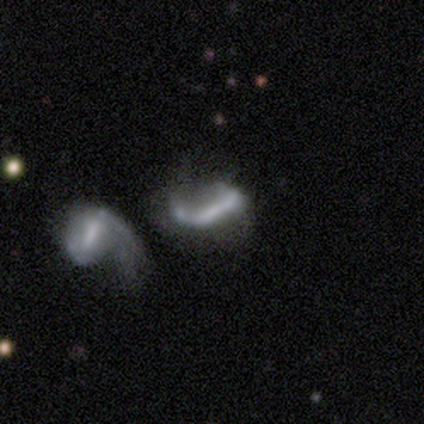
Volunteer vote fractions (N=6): Smooth or featured?
  - featured or disk: 50% *
  - star or artifact: 33%
  - smooth: 17%
Edge-on disk?
  - no: 100% *
  - yes: 0%
Bar?
  - no: 67% *
  - weak: 33%
  - strong: 0%
Spiral arms?
  - no: 100% *
  - yes: 0%
Bulge size?
  - none: 100% *
  - dominant: 0%
  - large: 0%
  - moderate: 0%
  - small: 0%
Merging?
  - major disturbance: 50% * (tied)
  - merger: 50% * (tied)
  - none: 0%
  - minor disturbance: 0%